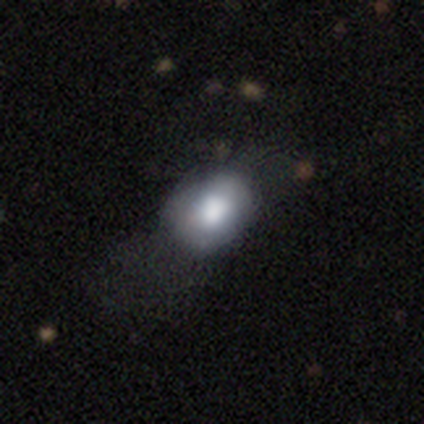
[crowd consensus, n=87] Q: Smooth or featured?
A: smooth (68%); runner-up: featured or disk (21%)
Q: How rounded?
A: in between (73%); runner-up: round (27%)
Q: Merging?
A: none (42%); runner-up: minor disturbance (31%)